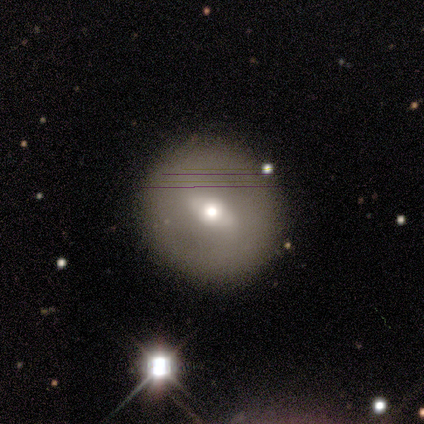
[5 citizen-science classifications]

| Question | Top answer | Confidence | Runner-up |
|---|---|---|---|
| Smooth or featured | featured or disk | 60% | smooth (40%) |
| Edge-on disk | no | 100% | — |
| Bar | weak | 67% | strong (33%) |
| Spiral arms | no | 67% | yes (33%) |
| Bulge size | moderate | 100% | — |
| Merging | none | 100% | — |